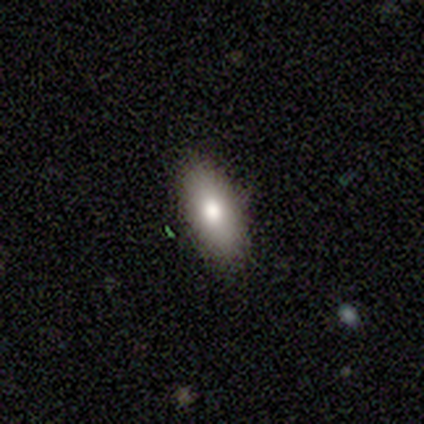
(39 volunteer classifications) A smooth galaxy with no disk features (72%) that is in between round and cigar-shaped (89%).

Vote fractions:
- Smooth or featured? smooth: 72% / star or artifact: 18% / featured or disk: 10%
- How rounded? in between: 89% / cigar-shaped: 11% / round: 0%
- Merging? none: 84% / minor disturbance: 12% / major disturbance: 3% / merger: 0%